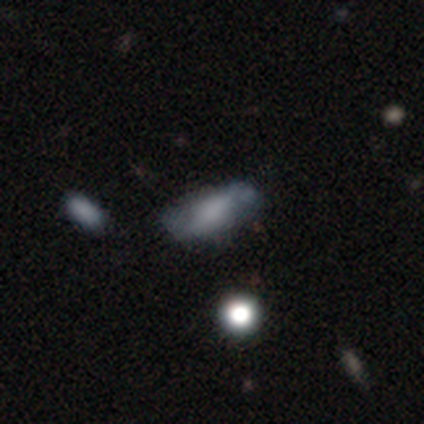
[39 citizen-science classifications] Smooth or featured? smooth (64%)
How rounded? in between (76%)
Merging? none (58%)